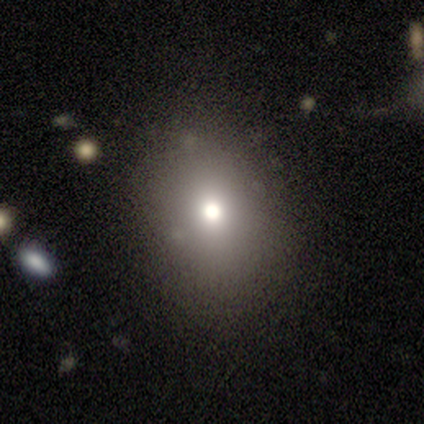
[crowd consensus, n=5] Volunteers were most divided on "how rounded" (2-way tie): round: 50%, in between: 50%, cigar-shaped: 0%. More confident: merging — none (100%); smooth or featured — smooth (80%).